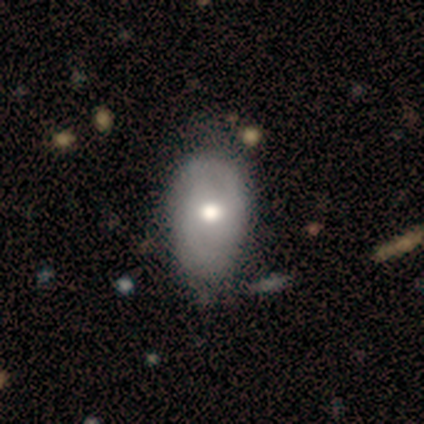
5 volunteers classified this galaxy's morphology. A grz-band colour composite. It shows a smooth galaxy with no disk features (60%) that is in between round and cigar-shaped (67%). Merging: none (80%).